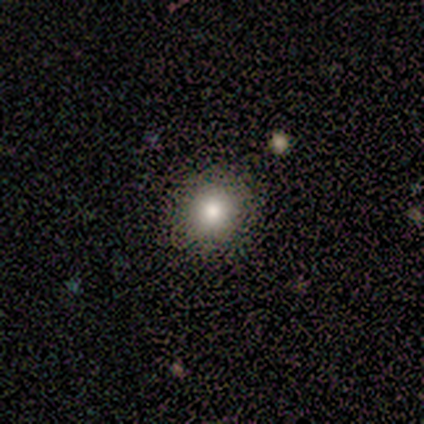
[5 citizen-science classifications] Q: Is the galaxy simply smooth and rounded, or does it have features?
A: smooth — 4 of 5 (80%).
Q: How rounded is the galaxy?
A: round — 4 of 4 (100%).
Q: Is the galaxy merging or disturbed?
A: none — 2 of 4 (50%).